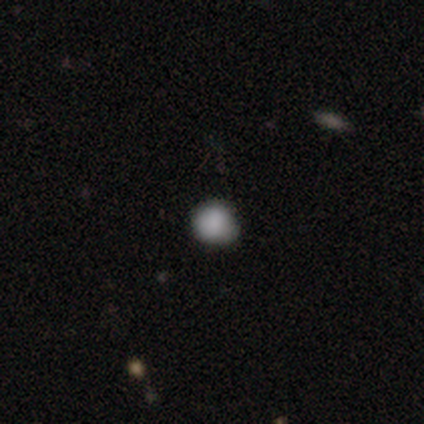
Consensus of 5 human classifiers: This is likely a smooth galaxy (60%). How rounded: clearly round (100%). Merging: likely none (67%).